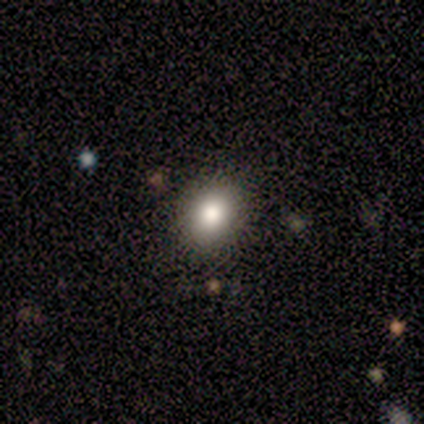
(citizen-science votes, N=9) smooth-or-featured: smooth: 78% | featured or disk: 22% | star or artifact: 0%
  how-rounded: in between: 57% | round: 43% | cigar-shaped: 0%
  merging: none: 78% | minor disturbance: 22% | major disturbance: 0% | merger: 0%